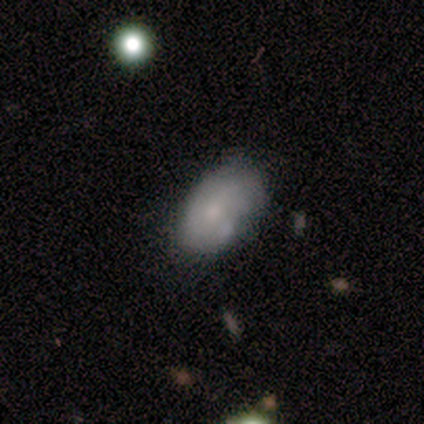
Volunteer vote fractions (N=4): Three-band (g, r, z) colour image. It shows a smooth galaxy with no disk features (75%) that is in between round and cigar-shaped (100%). Merging: none (50%).